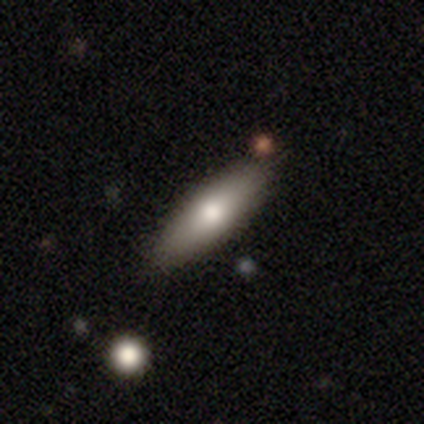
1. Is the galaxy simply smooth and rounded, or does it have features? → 100% smooth, 0% featured or disk, 0% star or artifact.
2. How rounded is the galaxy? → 60% cigar-shaped, 40% in between, 0% round.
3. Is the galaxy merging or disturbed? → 80% none, 20% major disturbance, 0% minor disturbance, 0% merger.